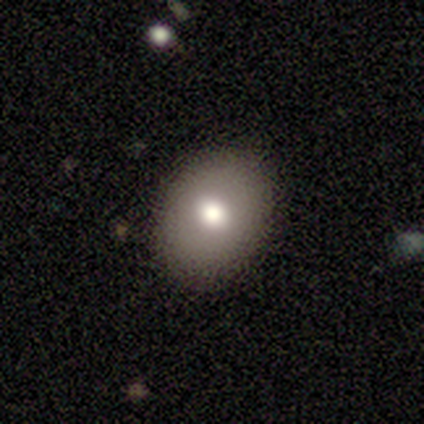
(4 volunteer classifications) smooth-or-featured: smooth: 100% | featured or disk: 0% | star or artifact: 0%
  how-rounded: in between: 100% | round: 0% | cigar-shaped: 0%
  merging: none: 100% | minor disturbance: 0% | major disturbance: 0% | merger: 0%